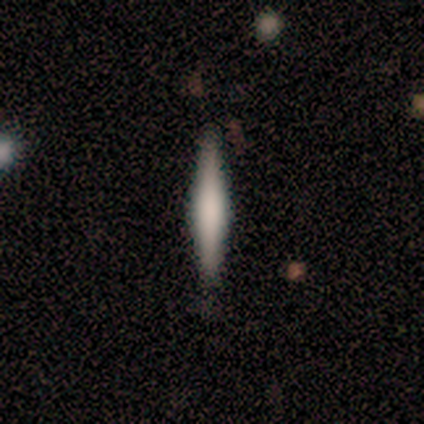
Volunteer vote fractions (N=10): Morphology: type=featured or disk (70%); edge-on=yes (100%); edge-on bulge=rounded (86%); merging=none (60%).